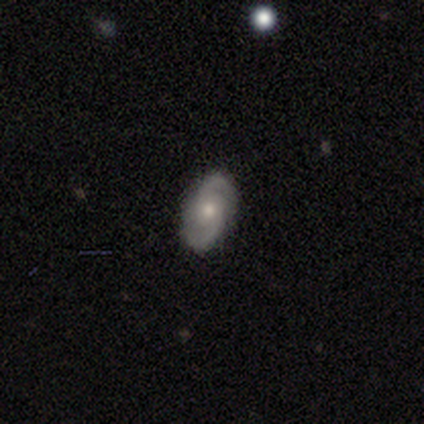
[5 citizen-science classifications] smooth-or-featured: featured or disk: 100% | smooth: 0% | star or artifact: 0%
  disk-edge-on: no: 100% | yes: 0%
    bar: no: 60% | weak: 40% | strong: 0%
    has-spiral-arms: yes: 100% | no: 0%
      spiral-winding: medium: 60% | tight: 20% | loose: 20%
      spiral-arm-count: 2: 100% | 1: 0% | 3: 0% | 4: 0% | more than 4: 0% | can't tell: 0%
    bulge-size: small: 60% | moderate: 40% | dominant: 0% | large: 0% | none: 0%
  merging: none: 100% | minor disturbance: 0% | major disturbance: 0% | merger: 0%